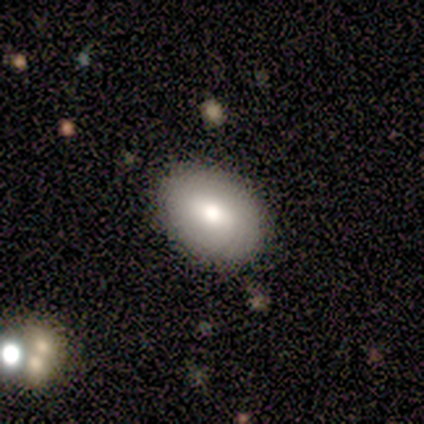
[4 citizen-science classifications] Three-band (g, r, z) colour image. It shows a smooth galaxy with no disk features (75%) that is in between round and cigar-shaped (100%). Merging: none (67%).